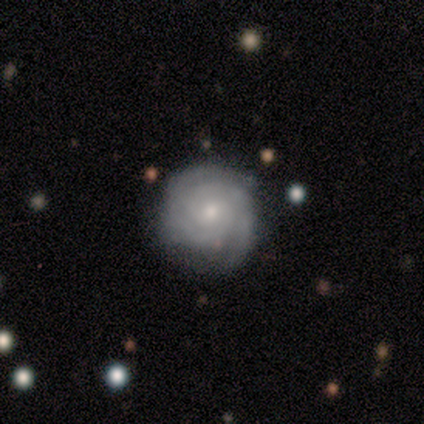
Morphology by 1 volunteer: Smooth or featured? featured or disk (100%)
Edge-on disk? no (100%)
Bar? weak (100%)
Spiral arms? yes (100%)
Spiral winding? tight (100%)
Spiral arm count? 3 (100%)
Bulge size? small (100%)
Merging? none (100%)